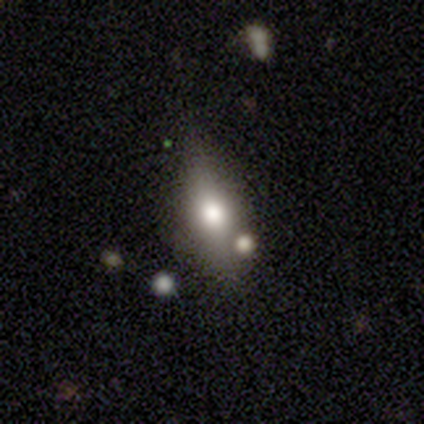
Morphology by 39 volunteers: Smooth or featured? smooth (62%)
How rounded? in between (62%)
Merging? none (88%)